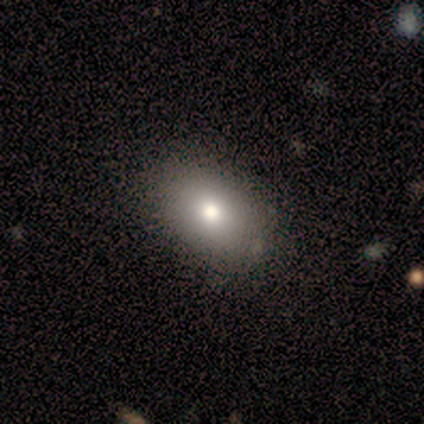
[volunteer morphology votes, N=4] type=smooth (50%, tied with star or artifact); roundness=in between (100%); merging=none (50%, tied with minor disturbance).